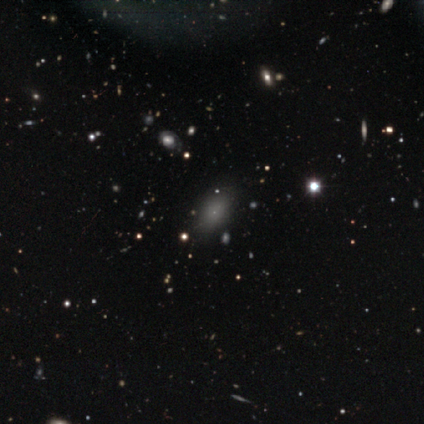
Morphology: type=star or artifact (60%).